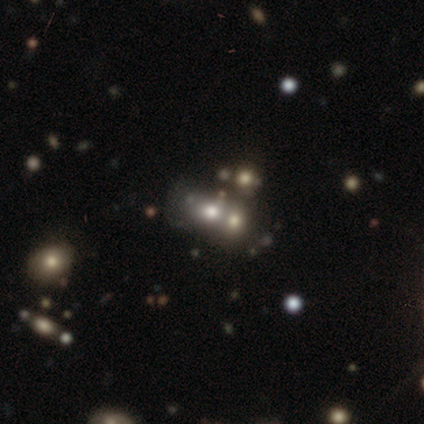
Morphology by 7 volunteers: Smooth or featured? 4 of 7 (57%) said smooth. How rounded? 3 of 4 (75%) said in between. Merging? 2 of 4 (50%) said merger.